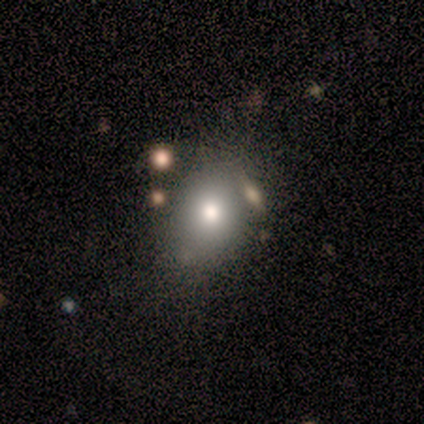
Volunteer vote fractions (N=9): A smooth galaxy with no disk features (89%) that is in between round and cigar-shaped (62%). Merging: none (67%).